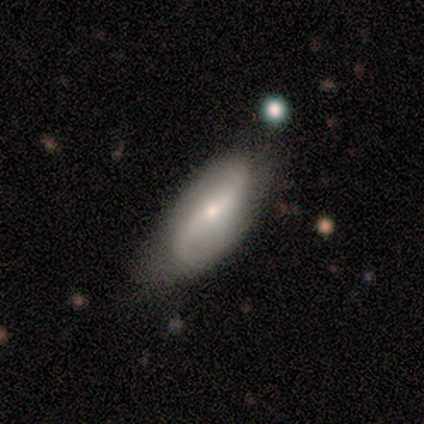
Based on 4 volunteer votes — Smooth or featured: featured or disk — 100%
Edge-on disk: no — 100%
Bar: strong — 50% (weak — 25%)
Spiral arms: yes — 50% (tied with no — 50%)
Spiral winding: loose — 100%
Spiral arm count: 2 — 100%
Bulge size: small — 75% (moderate — 25%)
Merging: none — 50% (minor disturbance — 25%)